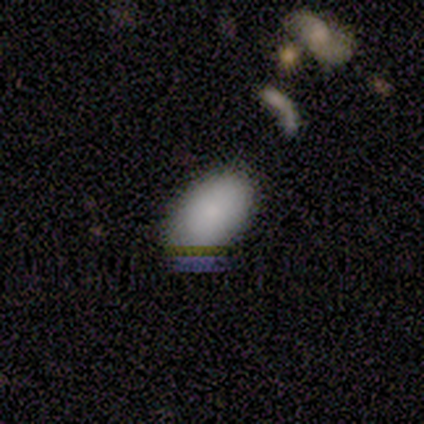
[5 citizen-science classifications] smooth_or_featured: smooth (p=0.80) [alt: featured or disk p=0.20]
how_rounded: in between (p=0.75) [alt: round p=0.25]
merging: none (p=0.80) [alt: minor disturbance p=0.20]